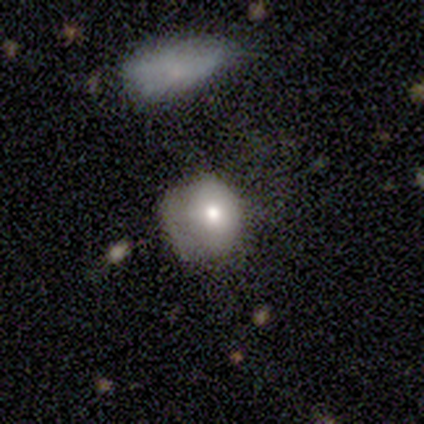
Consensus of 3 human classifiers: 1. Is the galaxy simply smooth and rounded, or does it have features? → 33% smooth (tied), 33% featured or disk (tied), 33% star or artifact (tied).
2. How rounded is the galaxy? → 100% in between, 0% round, 0% cigar-shaped.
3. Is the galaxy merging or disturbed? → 50% minor disturbance (tied), 50% major disturbance (tied), 0% none, 0% merger.